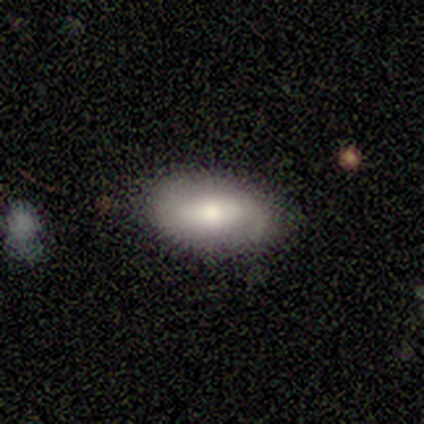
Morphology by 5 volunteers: smooth_or_featured: smooth (p=0.60) [alt: featured or disk p=0.40]
how_rounded: in between (p=1.00)
merging: none (p=0.60) [alt: minor disturbance p=0.40]